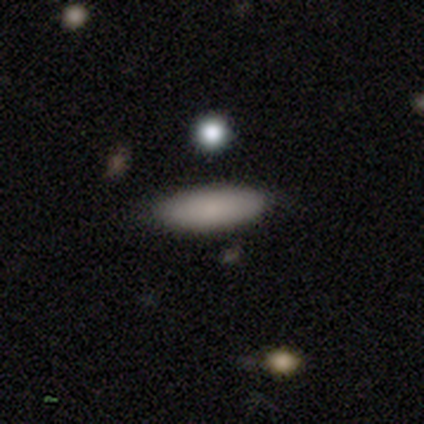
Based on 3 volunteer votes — Smooth or featured?
  - smooth: 100% *
  - featured or disk: 0%
  - star or artifact: 0%
How rounded?
  - in between: 67% *
  - cigar-shaped: 33%
  - round: 0%
Merging?
  - none: 100% *
  - minor disturbance: 0%
  - major disturbance: 0%
  - merger: 0%